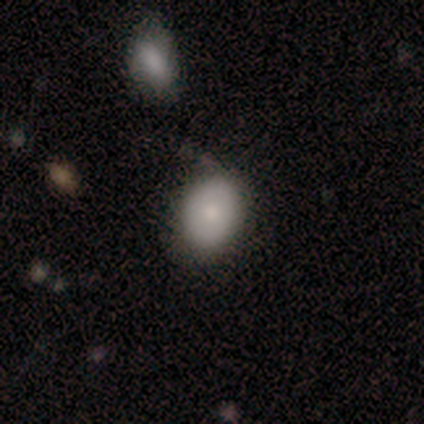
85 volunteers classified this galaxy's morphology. type=smooth (81%); roundness=in between (72%); merging=none (63%).